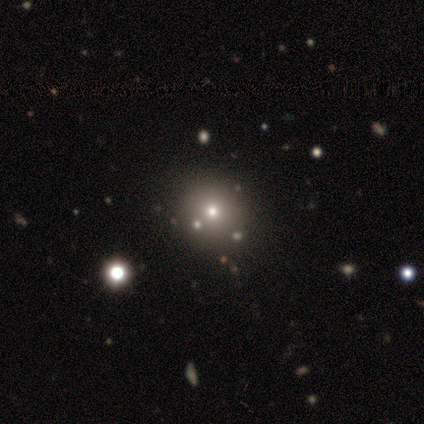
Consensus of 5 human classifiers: This appears to be a smooth galaxy with no disk features (40%, tied with featured or disk) that is round (50%, tied with in between). Merging: none (75%).